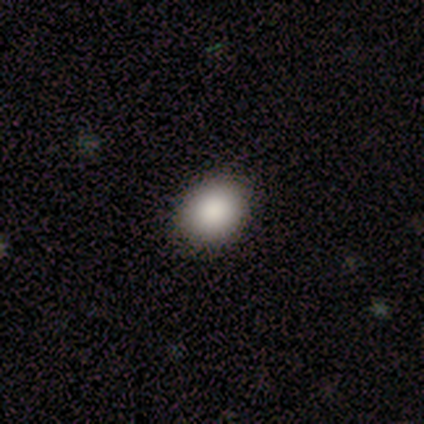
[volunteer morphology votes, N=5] Smooth or featured? 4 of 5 (80%) said smooth. How rounded? 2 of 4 (50%, tied with in between) said round. Merging? 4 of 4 (100%) said none.